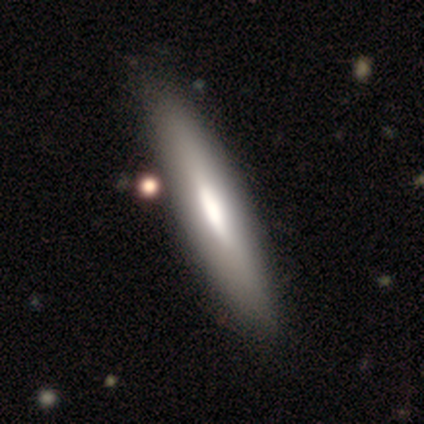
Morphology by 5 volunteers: Volunteers were most divided on "edge-on bulge" (3-way tie): boxy: 33%, none: 33%, rounded: 33%. More confident: edge-on disk — yes (100%); merging — none (80%); smooth or featured — featured or disk (60%).